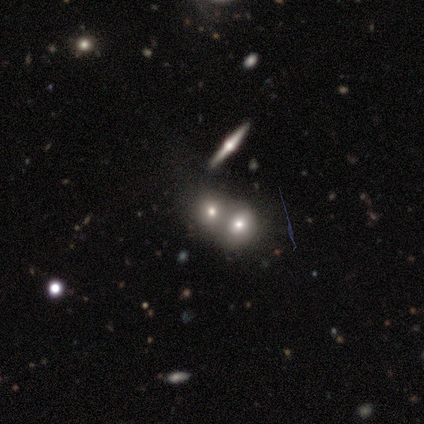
smooth 67%, featured or disk 25%, star or artifact 8%. Down the decision tree: how rounded — round (50%, tied with in between); merging — merger (73%).